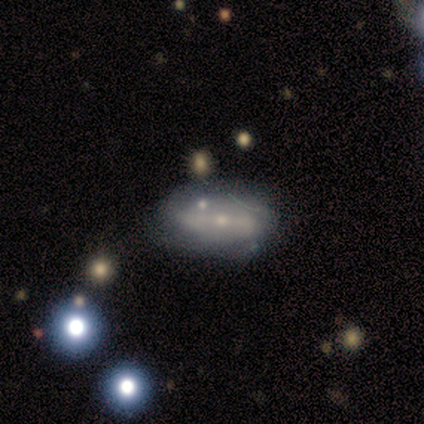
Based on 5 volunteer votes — This appears to be a smooth galaxy with no disk features (60%) that is in between round and cigar-shaped (67%). Merging: none (60%).